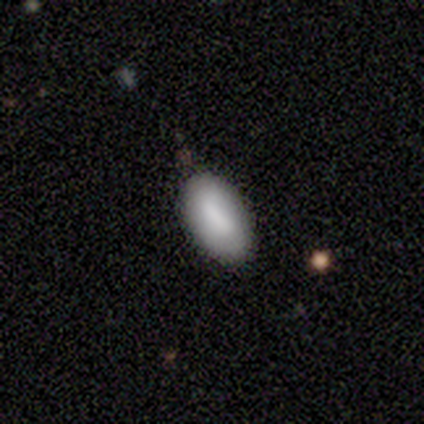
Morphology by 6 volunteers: This appears to be a smooth galaxy with no disk features (50%) that is in between round and cigar-shaped (100%). Merging: none (80%).